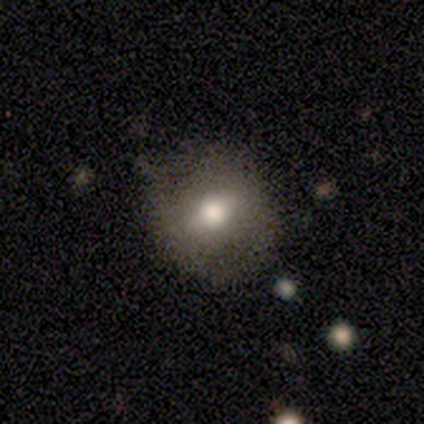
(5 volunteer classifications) Morphology: type=smooth (80%); roundness=round (75%); merging=none (60%).